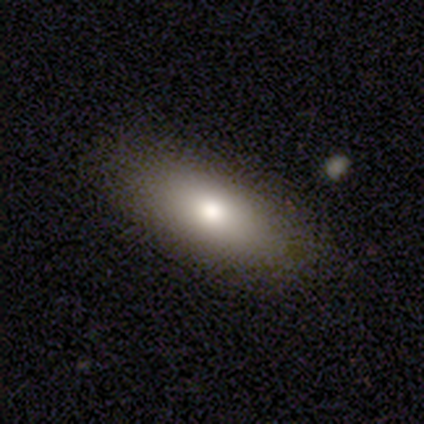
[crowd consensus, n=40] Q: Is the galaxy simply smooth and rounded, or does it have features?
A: smooth — 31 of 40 (78%).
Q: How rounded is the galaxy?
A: in between — 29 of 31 (94%).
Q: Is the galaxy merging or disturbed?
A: none — 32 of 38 (84%).